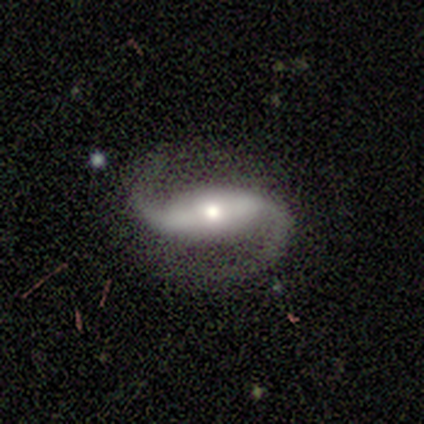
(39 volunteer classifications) Smooth or featured? 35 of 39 (90%) said featured or disk. Edge-on disk? 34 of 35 (97%) said no. Bar? 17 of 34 (50%) said strong. Spiral arms? 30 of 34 (88%) said yes. Spiral winding? 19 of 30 (63%) said loose. Spiral arm count? 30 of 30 (100%) said 2. Bulge size? 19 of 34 (56%) said small. Merging? 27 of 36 (75%) said none.